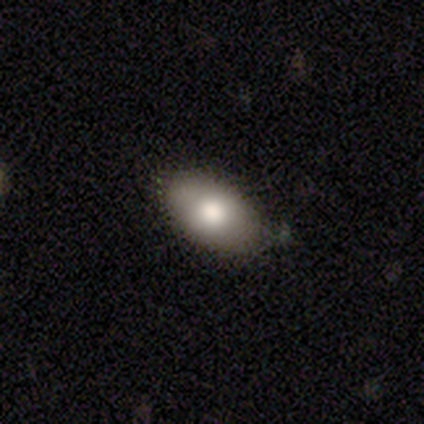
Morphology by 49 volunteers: A smooth galaxy with no disk features (82%) that is in between round and cigar-shaped (92%). Merging: none (83%).